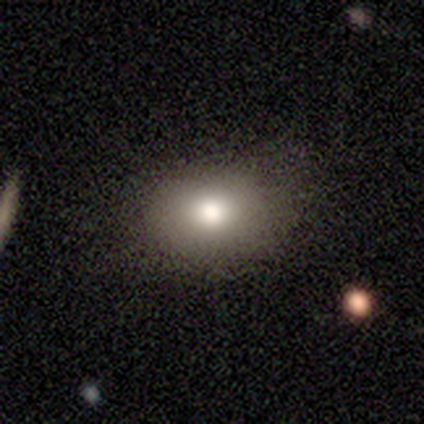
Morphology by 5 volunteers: This appears to be a smooth galaxy with no disk features (100%) that is in between round and cigar-shaped (60%). Merging: none (40%, tied with minor disturbance).